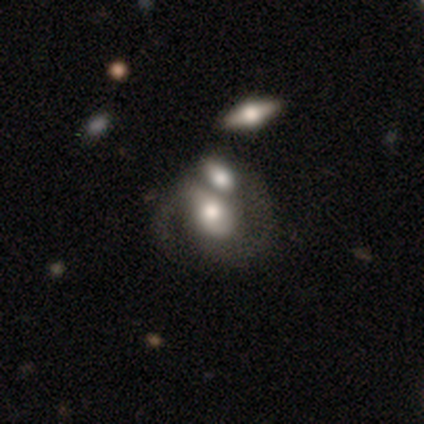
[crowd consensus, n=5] This appears to be a featured or disk galaxy (100%) with no bar (75%), 2 (75%) medium (50%) spiral arms (100%) and a moderate central bulge (100%). Merging: merger (80%).